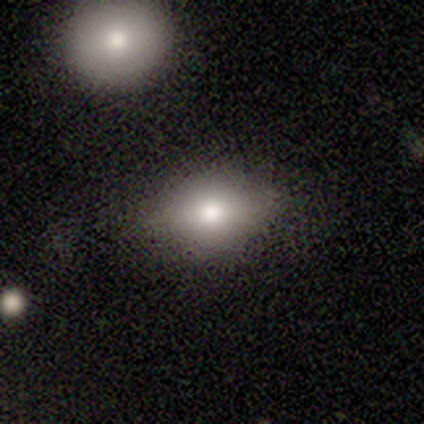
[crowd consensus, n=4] This appears to be a smooth galaxy with no disk features (75%) that is in between round and cigar-shaped (100%). Merging: none (75%).